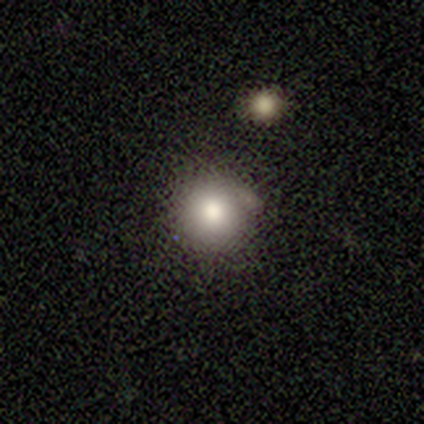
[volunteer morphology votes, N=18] Overall: smooth (83%). How rounded: round (100%). Merging: none (81%).